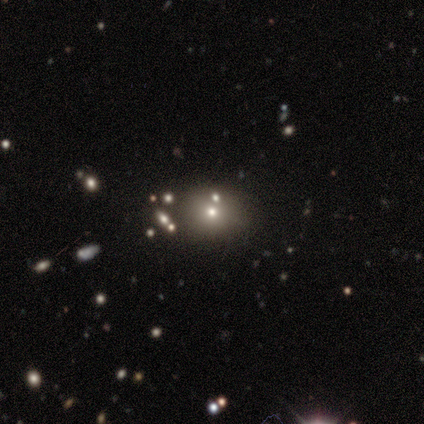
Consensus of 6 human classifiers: Smooth or featured? 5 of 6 (83%) said smooth. How rounded? 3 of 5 (60%) said round. Merging? 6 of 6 (100%) said none.